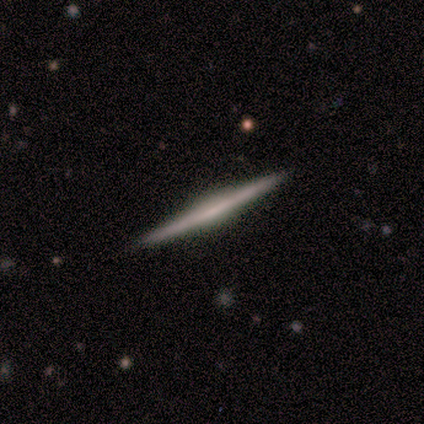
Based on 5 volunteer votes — smooth-or-featured: featured or disk: 60% | smooth: 20% | star or artifact: 20%
  disk-edge-on: yes: 100% | no: 0%
    edge-on-bulge: boxy: 33% (tied) | none: 33% (tied) | rounded: 33% (tied)
  merging: none: 100% | minor disturbance: 0% | major disturbance: 0% | merger: 0%